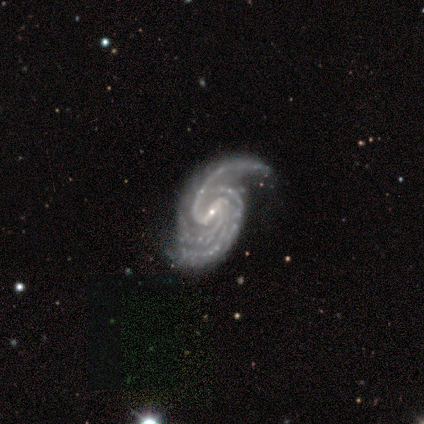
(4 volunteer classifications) A featured or disk galaxy (100%) with a strong bar (50%), 2 (50%, tied with 3) tight (50%, tied with medium) spiral arms (100%) and a small central bulge (75%). Merging: none (100%).